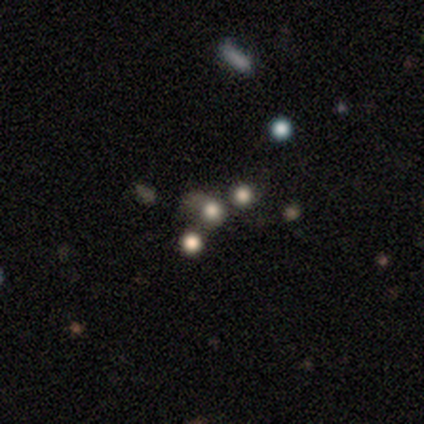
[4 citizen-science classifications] Overall: smooth (50%; featured or disk 25%). How rounded: round (100%). Merging: none (67%; merger 33%).